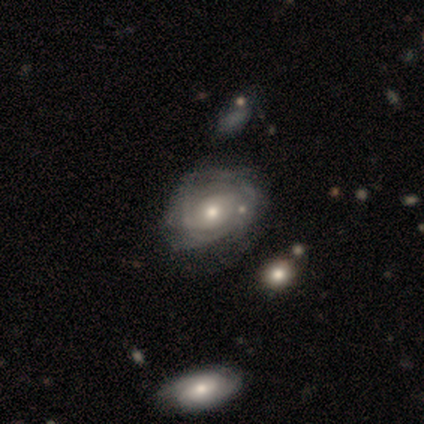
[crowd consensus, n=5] smooth_or_featured: featured or disk (p=1.00)
disk_edge_on: no (p=1.00)
bar: no (p=0.80) [alt: weak p=0.20]
has_spiral_arms: yes (p=0.60) [alt: no p=0.40]
spiral_winding: tight (p=0.67) [alt: medium p=0.33]
spiral_arm_count: can't tell (p=1.00)
bulge_size: small (p=0.60) [alt: moderate p=0.40]
merging: none (p=0.60) [alt: major disturbance p=0.40]